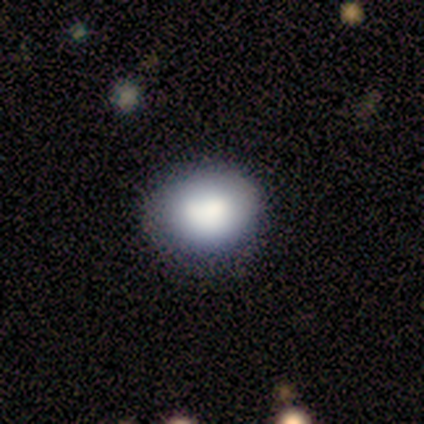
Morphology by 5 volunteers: smooth-or-featured: smooth: 80% | star or artifact: 20% | featured or disk: 0%
  how-rounded: round: 50% (tied) | in between: 50% (tied) | cigar-shaped: 0%
  merging: none: 75% | minor disturbance: 25% | major disturbance: 0% | merger: 0%